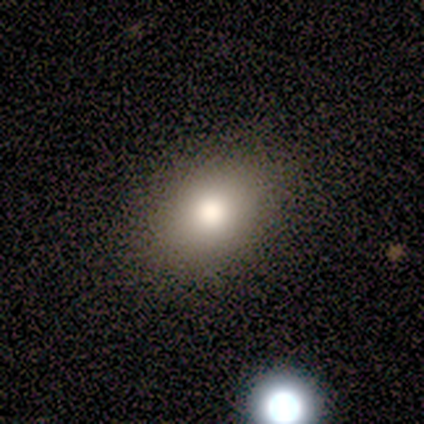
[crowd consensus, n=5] Morphology: type=smooth (80%); roundness=in between (100%); merging=none (80%).